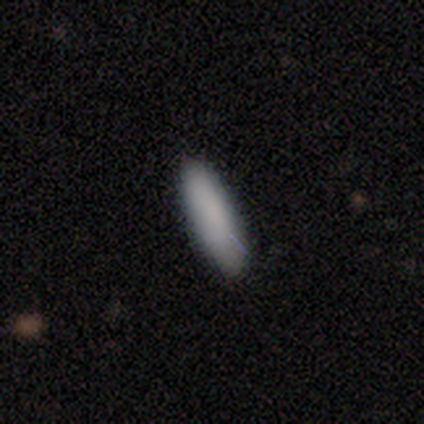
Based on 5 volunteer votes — Volunteers were most divided on "merging": none: 60%, minor disturbance: 40%, major disturbance: 0%, merger: 0%. More confident: smooth or featured — smooth (100%); how rounded — cigar-shaped (80%).